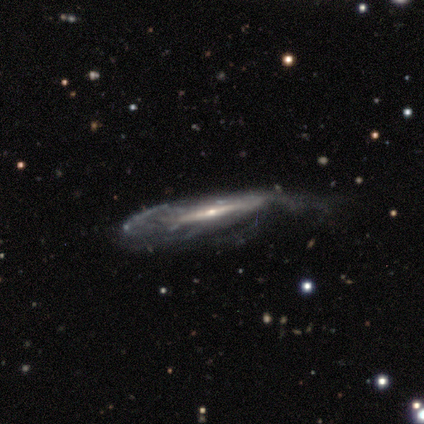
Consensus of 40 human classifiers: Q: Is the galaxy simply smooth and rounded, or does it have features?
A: featured or disk — 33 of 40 (82%).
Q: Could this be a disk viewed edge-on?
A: no — 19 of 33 (58%).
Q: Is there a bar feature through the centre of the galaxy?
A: no — 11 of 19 (58%).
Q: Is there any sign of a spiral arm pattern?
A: yes — 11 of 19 (58%).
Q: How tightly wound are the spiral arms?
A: tight — 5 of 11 (45%, tied with medium).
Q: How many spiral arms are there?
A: can't tell — 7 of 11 (64%).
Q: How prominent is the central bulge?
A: small — 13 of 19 (68%).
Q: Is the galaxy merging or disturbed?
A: none — 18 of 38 (47%).